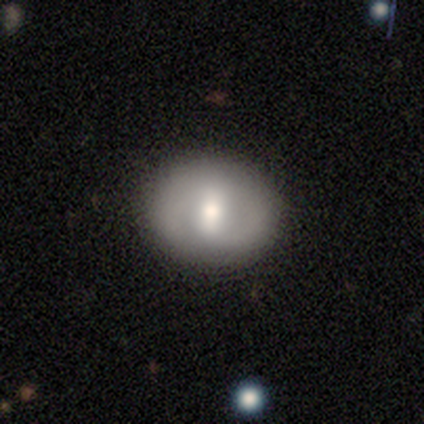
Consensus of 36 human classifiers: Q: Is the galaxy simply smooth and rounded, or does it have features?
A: smooth — 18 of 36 (50%).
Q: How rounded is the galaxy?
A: in between — 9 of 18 (50%).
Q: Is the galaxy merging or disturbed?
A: none — 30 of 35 (86%).